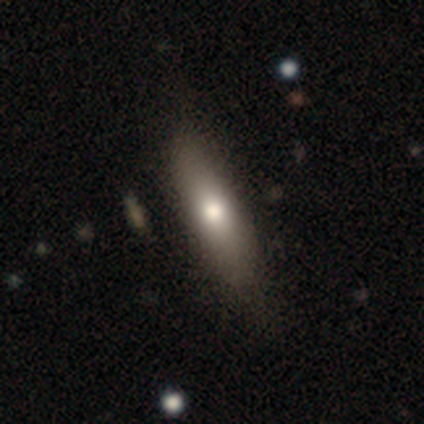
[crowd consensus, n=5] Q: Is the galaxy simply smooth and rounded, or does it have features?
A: smooth — 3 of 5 (60%).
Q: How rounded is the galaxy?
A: cigar-shaped — 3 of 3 (100%).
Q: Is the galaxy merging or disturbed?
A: none — 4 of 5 (80%).